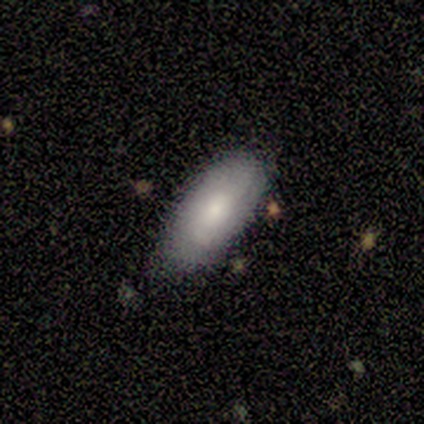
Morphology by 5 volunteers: smooth 100%, featured or disk 0%, star or artifact 0%. Down the decision tree: how rounded — in between (100%); merging — none (80%).